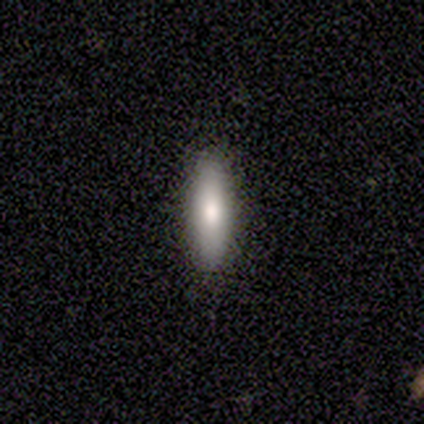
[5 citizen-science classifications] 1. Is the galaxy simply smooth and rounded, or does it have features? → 100% smooth, 0% featured or disk, 0% star or artifact.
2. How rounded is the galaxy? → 80% cigar-shaped, 20% in between, 0% round.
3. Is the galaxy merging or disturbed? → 100% none, 0% minor disturbance, 0% major disturbance, 0% merger.